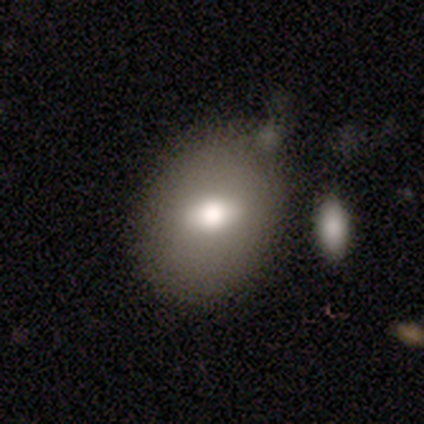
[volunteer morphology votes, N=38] smooth 66%, featured or disk 26%, star or artifact 8%. Down the decision tree: how rounded — in between (56%); merging — none (40%).